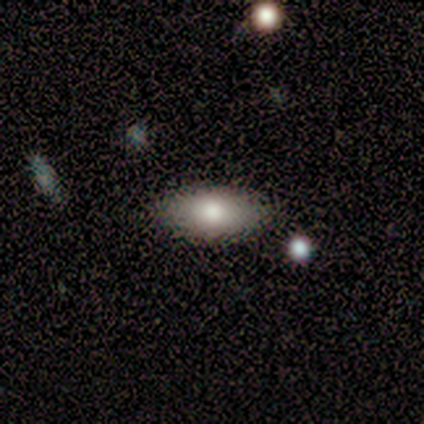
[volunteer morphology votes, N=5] Volunteers were most divided on "smooth or featured": smooth: 80%, star or artifact: 20%, featured or disk: 0%. More confident: how rounded — in between (100%); merging — none (100%).